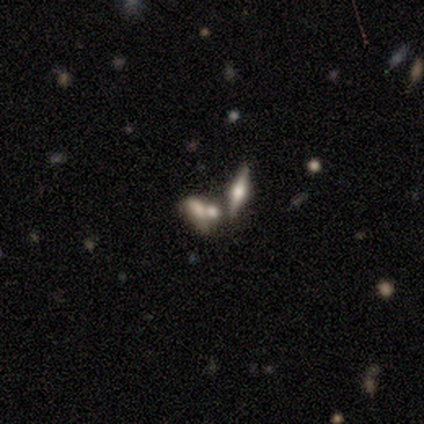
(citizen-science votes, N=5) This is clearly a smooth galaxy (80%). How rounded: possibly in between (50%). Merging: likely merger (60%).